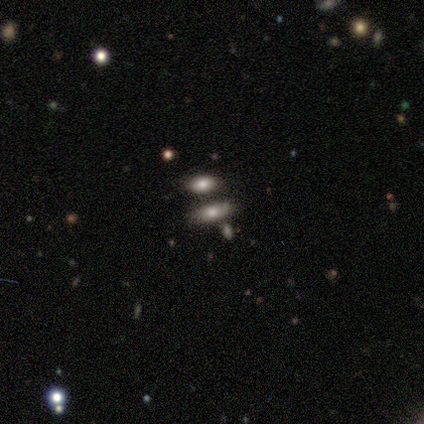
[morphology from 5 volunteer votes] Q: Smooth or featured?
A: smooth (100%)
Q: How rounded?
A: in between (80%); runner-up: cigar-shaped (20%)
Q: Merging?
A: none (60%); runner-up: minor disturbance (20%)